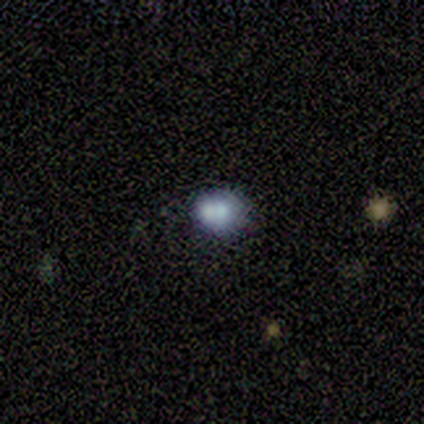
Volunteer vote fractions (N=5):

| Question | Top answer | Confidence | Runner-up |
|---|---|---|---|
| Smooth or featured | smooth | 40% | tied: featured or disk (40%) |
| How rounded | round | 100% | — |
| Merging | none | 50% | major disturbance (25%) |